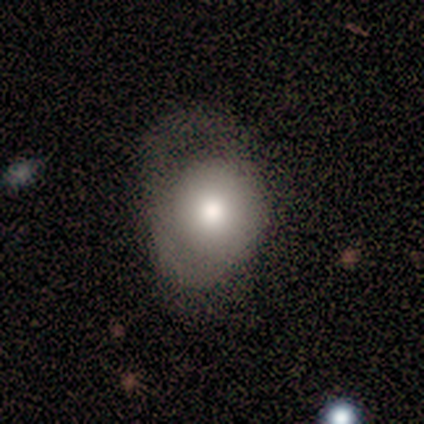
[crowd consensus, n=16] A smooth galaxy with no disk features (62%) that is round (90%).

Vote fractions:
- Smooth or featured? smooth: 62% / featured or disk: 25% / star or artifact: 12%
- How rounded? round: 90% / in between: 10% / cigar-shaped: 0%
- Merging? major disturbance: 57% / none: 21% / minor disturbance: 21% / merger: 0%